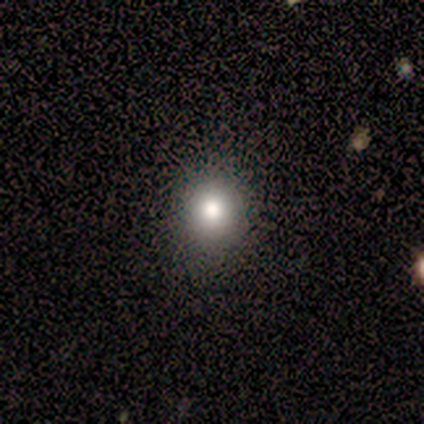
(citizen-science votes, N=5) smooth 80%, star or artifact 20%, featured or disk 0%. Down the decision tree: how rounded — round (100%); merging — none (100%).